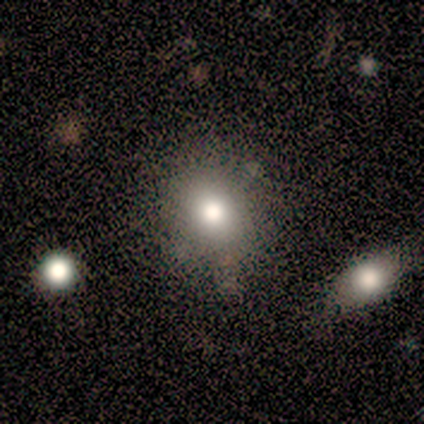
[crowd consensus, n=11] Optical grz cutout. It shows a smooth galaxy with no disk features (82%) that is round (78%). Merging: none (60%).